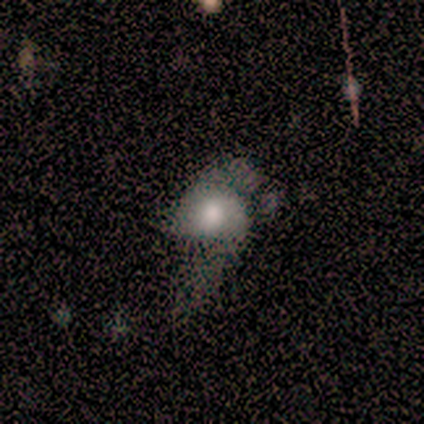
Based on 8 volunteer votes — Smooth or featured? smooth (75%)
How rounded? in between (100%)
Merging? none (38%, tied with major disturbance)